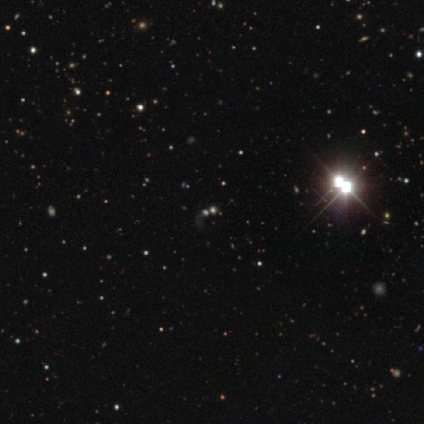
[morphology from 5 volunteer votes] Smooth or featured? star or artifact (100%)